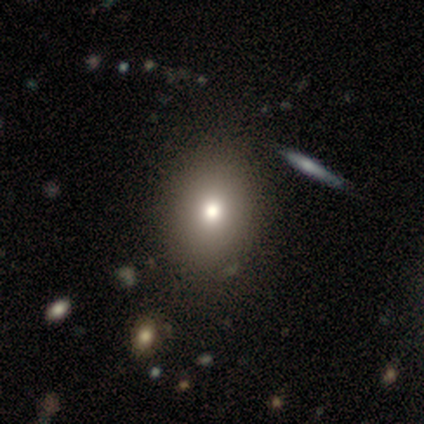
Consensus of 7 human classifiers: A smooth galaxy with no disk features (86%) that is round (50%, tied with in between). Merging: none (100%).